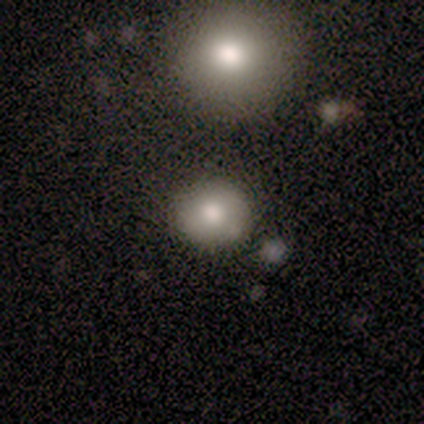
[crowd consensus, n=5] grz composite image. It shows a smooth galaxy with no disk features (100%) that is round (80%). Merging: none (100%).